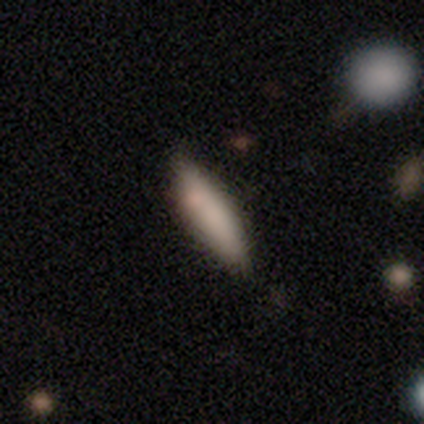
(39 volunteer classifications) Morphology: type=smooth (74%); roundness=cigar-shaped (69%); merging=none (81%).